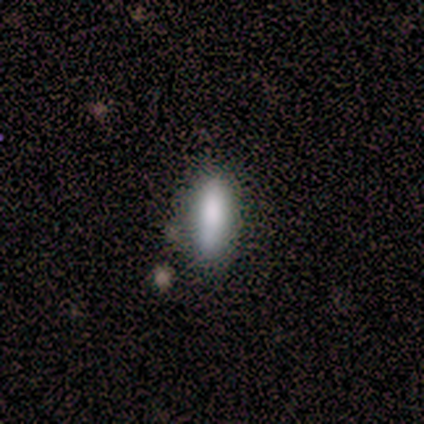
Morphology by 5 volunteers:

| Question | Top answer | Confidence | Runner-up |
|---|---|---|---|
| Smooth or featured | smooth | 100% | — |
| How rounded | cigar-shaped | 60% | in between (40%) |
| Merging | none | 60% | minor disturbance (40%) |